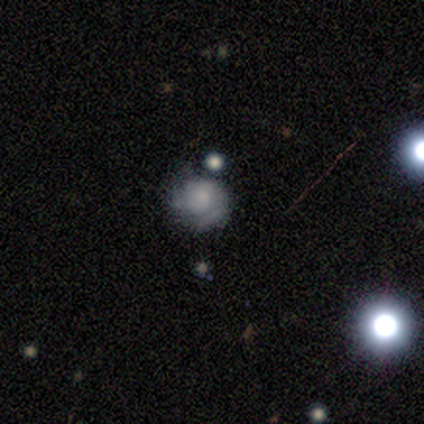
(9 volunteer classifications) featured or disk 56%, smooth 33%, star or artifact 11%. Down the decision tree: edge-on disk — no (100%); bar — no (80%); spiral arms — no (60%); bulge size — none (60%); merging — none (50%, tied with minor disturbance).